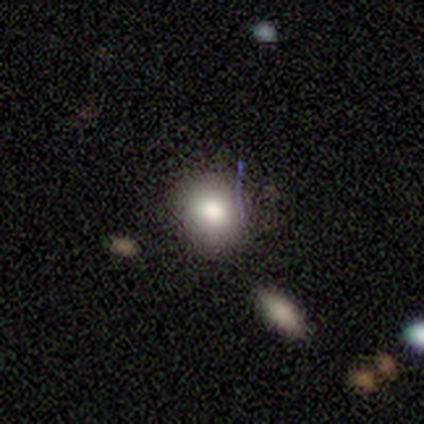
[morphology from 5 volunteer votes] Smooth or featured? 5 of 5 (100%) said smooth. How rounded? 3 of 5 (60%) said round. Merging? 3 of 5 (60%) said none.